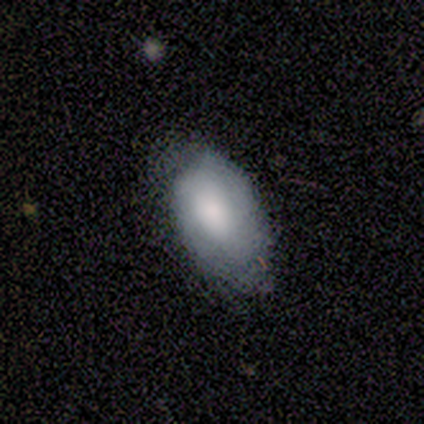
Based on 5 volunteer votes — smooth-or-featured: smooth: 100% | featured or disk: 0% | star or artifact: 0%
  how-rounded: in between: 100% | round: 0% | cigar-shaped: 0%
  merging: minor disturbance: 60% | none: 20% | major disturbance: 20% | merger: 0%